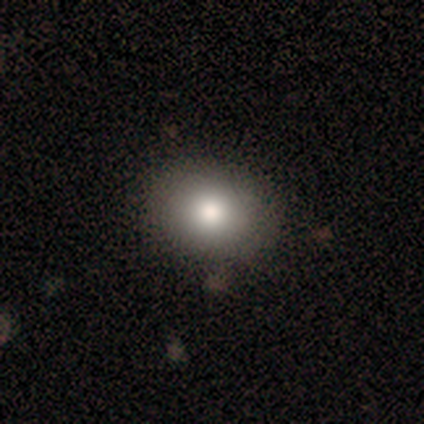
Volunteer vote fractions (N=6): smooth 100%, featured or disk 0%, star or artifact 0%. Down the decision tree: how rounded — round (67%); merging — none (83%).